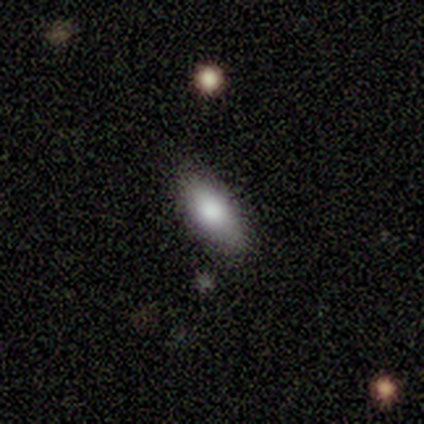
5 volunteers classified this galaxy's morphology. Q: Smooth or featured?
A: smooth (100%)
Q: How rounded?
A: in between (100%)
Q: Merging?
A: none (100%)